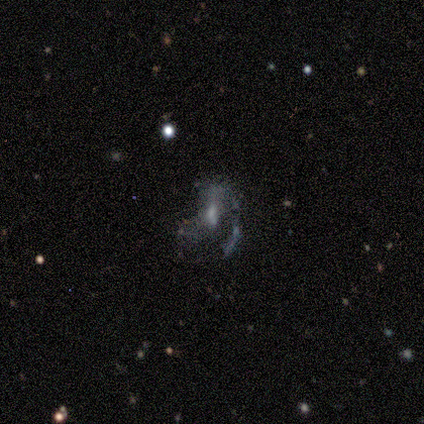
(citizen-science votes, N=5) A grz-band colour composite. It shows a featured or disk galaxy (80%) with no bar (100%), no spiral arms (75%) and a moderate central bulge (50%, tied with small). Merging: major disturbance (50%).